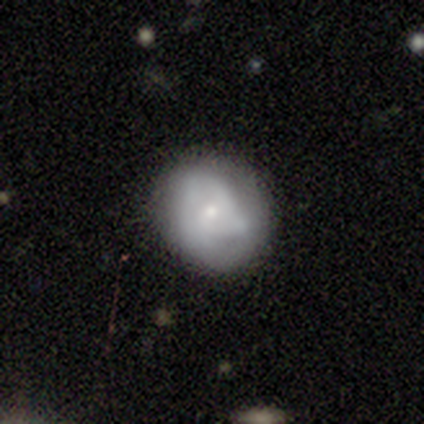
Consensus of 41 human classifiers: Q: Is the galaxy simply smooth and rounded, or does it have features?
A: featured or disk — 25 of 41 (61%).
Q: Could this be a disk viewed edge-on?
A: no — 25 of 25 (100%).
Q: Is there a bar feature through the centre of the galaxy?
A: no — 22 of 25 (88%).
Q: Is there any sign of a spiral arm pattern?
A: yes — 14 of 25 (56%).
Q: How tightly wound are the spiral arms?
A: tight — 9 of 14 (64%).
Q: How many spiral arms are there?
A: can't tell — 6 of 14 (43%).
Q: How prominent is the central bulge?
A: small — 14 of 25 (56%).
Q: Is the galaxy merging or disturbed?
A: none — 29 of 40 (72%).